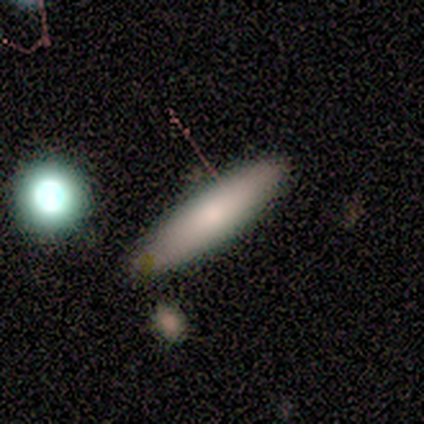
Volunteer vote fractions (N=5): A smooth galaxy with no disk features (100%) that is cigar-shaped (80%).

Vote fractions:
- Smooth or featured? smooth: 100% / featured or disk: 0% / star or artifact: 0%
- How rounded? cigar-shaped: 80% / in between: 20% / round: 0%
- Merging? none: 60% / major disturbance: 40% / minor disturbance: 0% / merger: 0%